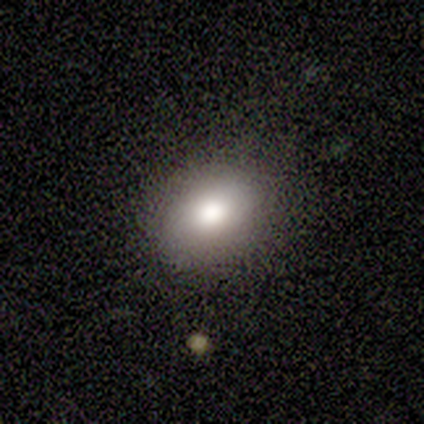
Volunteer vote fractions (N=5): Smooth or featured?
  - smooth: 100% *
  - featured or disk: 0%
  - star or artifact: 0%
How rounded?
  - in between: 60% *
  - round: 40%
  - cigar-shaped: 0%
Merging?
  - none: 60% *
  - minor disturbance: 20%
  - major disturbance: 20%
  - merger: 0%